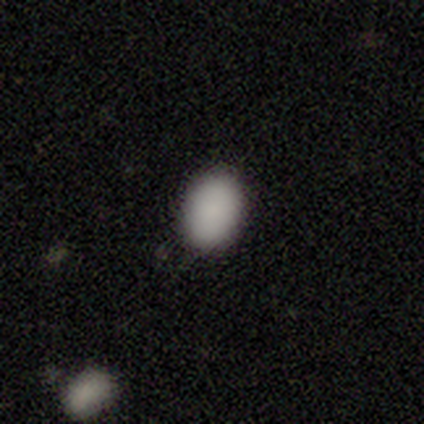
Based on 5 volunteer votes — Overall: smooth (100%). How rounded: in between (100%). Merging: none (100%).